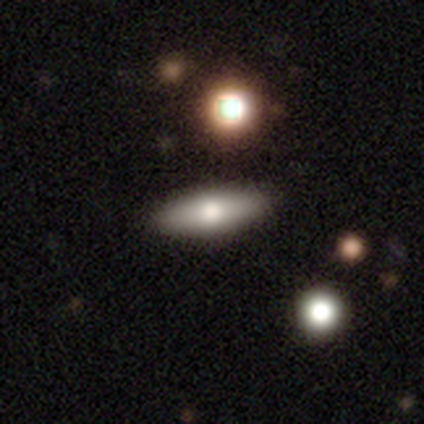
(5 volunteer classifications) smooth_or_featured: smooth (p=0.80) [alt: featured or disk p=0.20]
how_rounded: in between (p=0.75) [alt: cigar-shaped p=0.25]
merging: none (p=0.60) [alt: minor disturbance p=0.40]